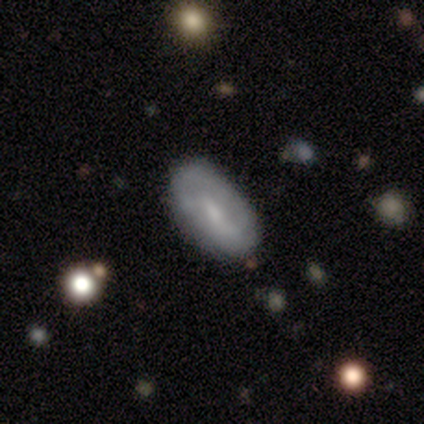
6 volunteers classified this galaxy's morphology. Volunteers were most divided on "merging" (3-way tie): none: 33%, minor disturbance: 33%, major disturbance: 33%, merger: 0%. More confident: how rounded — in between (100%); smooth or featured — smooth (83%).